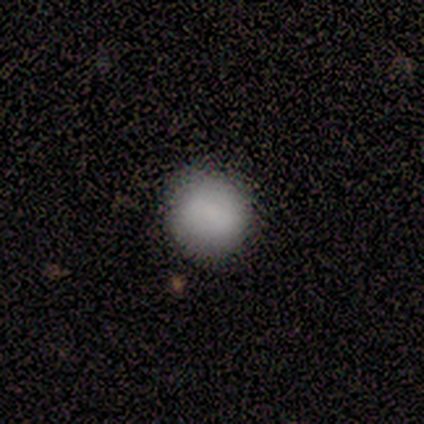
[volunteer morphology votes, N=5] Overall: smooth (100%). How rounded: round (100%). Merging: none (100%).